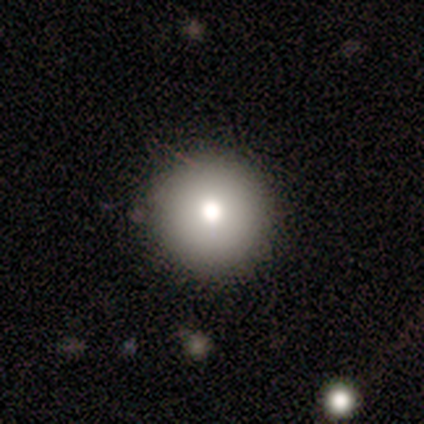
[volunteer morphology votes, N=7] Volunteers were most divided on "smooth or featured": smooth: 71%, star or artifact: 29%, featured or disk: 0%. More confident: how rounded — round (100%); merging — none (100%).